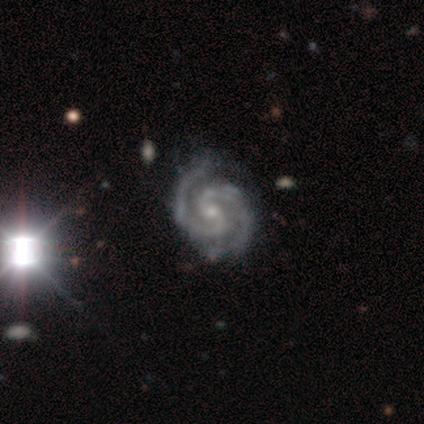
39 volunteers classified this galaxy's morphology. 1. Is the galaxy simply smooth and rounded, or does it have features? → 100% featured or disk, 0% smooth, 0% star or artifact.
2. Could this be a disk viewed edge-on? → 100% no, 0% yes.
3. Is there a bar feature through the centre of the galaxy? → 59% no, 33% weak, 8% strong.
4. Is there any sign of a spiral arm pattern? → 100% yes, 0% no.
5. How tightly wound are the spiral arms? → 46% tight (tied), 46% medium (tied), 8% loose.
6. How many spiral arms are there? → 90% 2, 10% 3, 0% 1, 0% 4, 0% more than 4, 0% can't tell.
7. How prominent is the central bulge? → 82% small, 15% moderate, 3% none, 0% dominant, 0% large.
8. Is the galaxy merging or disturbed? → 56% none, 10% minor disturbance, 5% major disturbance, 0% merger.